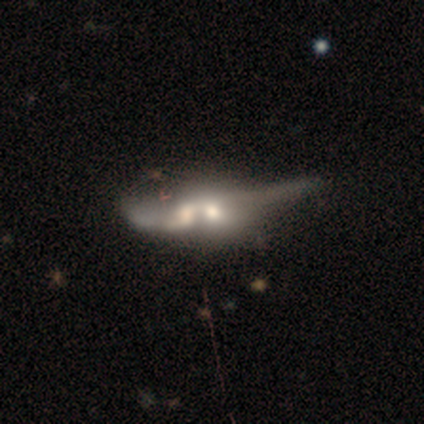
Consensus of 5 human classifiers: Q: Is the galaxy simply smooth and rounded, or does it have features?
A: smooth — 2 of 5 (40%, tied with featured or disk).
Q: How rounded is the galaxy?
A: in between — 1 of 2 (50%, tied with cigar-shaped).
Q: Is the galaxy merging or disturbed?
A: merger — 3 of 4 (75%).